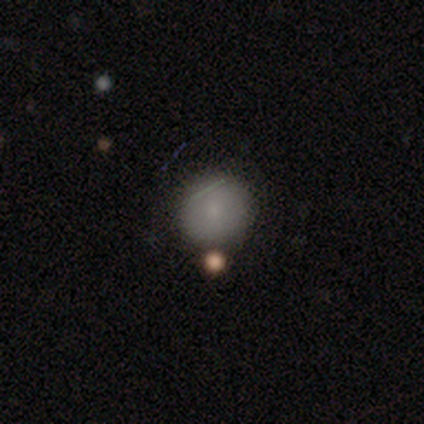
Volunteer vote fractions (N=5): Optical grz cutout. It shows a smooth galaxy with no disk features (100%) that is round (80%). Merging: minor disturbance (60%).